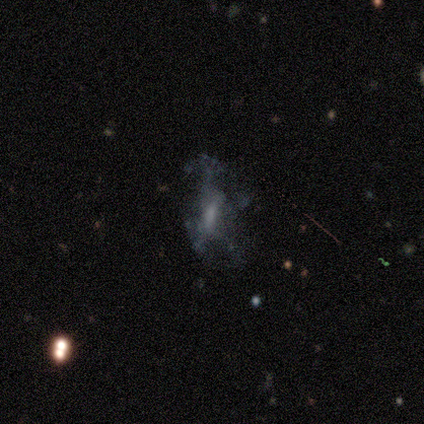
This appears to be a smooth galaxy with no disk features (67%) that is in between round and cigar-shaped (100%). Merging: none (67%).